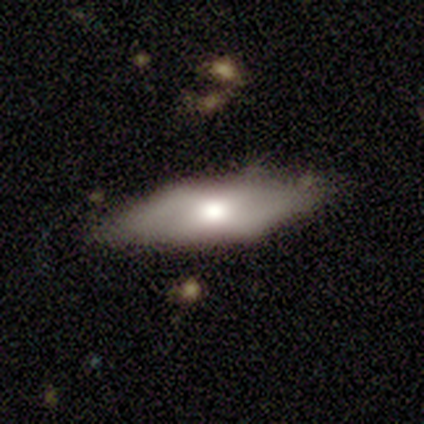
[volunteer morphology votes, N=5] Smooth or featured? featured or disk (60%)
Edge-on disk? no (100%)
Bar? no (100%)
Spiral arms? no (100%)
Bulge size? moderate (100%)
Merging? none (100%)